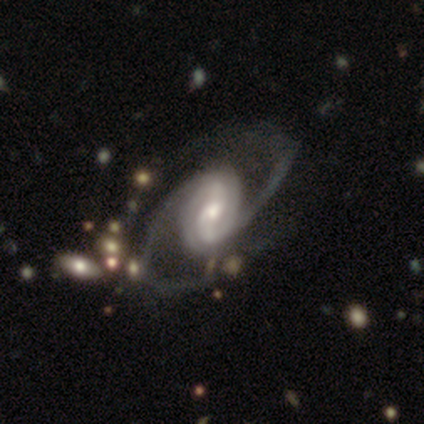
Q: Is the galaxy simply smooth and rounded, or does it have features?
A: featured or disk — 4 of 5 (80%).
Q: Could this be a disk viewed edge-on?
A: no — 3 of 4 (75%).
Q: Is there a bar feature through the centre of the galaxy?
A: weak — 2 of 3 (67%).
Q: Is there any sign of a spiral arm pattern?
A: yes — 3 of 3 (100%).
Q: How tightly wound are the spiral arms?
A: medium — 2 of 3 (67%).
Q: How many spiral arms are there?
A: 2 — 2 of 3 (67%).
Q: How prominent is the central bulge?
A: moderate — 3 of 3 (100%).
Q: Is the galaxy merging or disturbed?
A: none — 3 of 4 (75%).